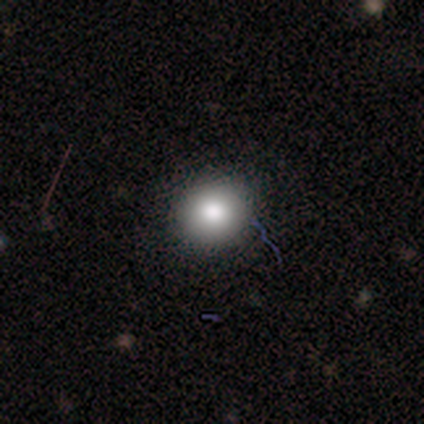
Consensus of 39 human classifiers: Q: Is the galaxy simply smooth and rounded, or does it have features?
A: smooth — 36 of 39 (92%).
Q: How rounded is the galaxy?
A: round — 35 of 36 (97%).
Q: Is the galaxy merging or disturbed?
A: none — 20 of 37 (54%).